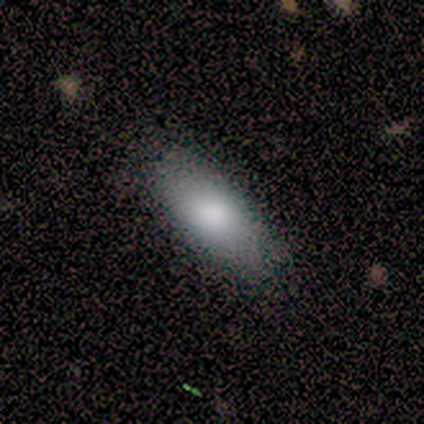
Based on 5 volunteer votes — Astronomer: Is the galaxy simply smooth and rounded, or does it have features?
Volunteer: smooth — 100%.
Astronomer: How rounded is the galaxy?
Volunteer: in between — 100%.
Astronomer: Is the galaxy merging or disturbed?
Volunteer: none — 80%.